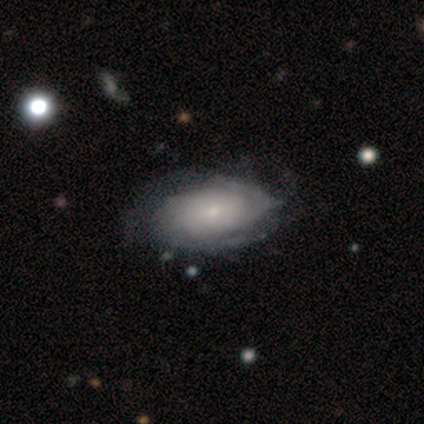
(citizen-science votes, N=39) A featured or disk galaxy (82%) with no bar (88%), tight (74%) spiral arms (97%) and a small central bulge (84%).

Vote fractions:
- Smooth or featured? featured or disk: 82% / smooth: 15% / star or artifact: 3%
- Edge-on disk? no: 100% / yes: 0%
- Bar? no: 88% / weak: 12% / strong: 0%
- Spiral arms? yes: 97% / no: 3%
- Spiral winding? tight: 74% / medium: 23% / loose: 3%
- Spiral arm count? can't tell: 55% / 2: 29% / 3: 10% / 1: 3% / more than 4: 3% / 4: 0%
- Bulge size? small: 84% / moderate: 16% / dominant: 0% / large: 0% / none: 0%
- Merging? none: 58% / minor disturbance: 13% / major disturbance: 11% / merger: 0%